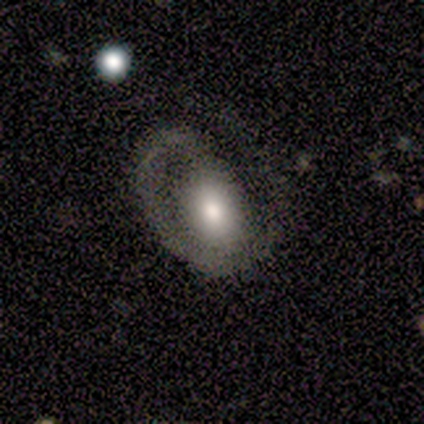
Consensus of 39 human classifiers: A featured or disk galaxy (64%) with no bar (77%), 1 (82%) tight (59%) spiral arms (77%) and a moderate central bulge (73%). Merging: major disturbance (57%).